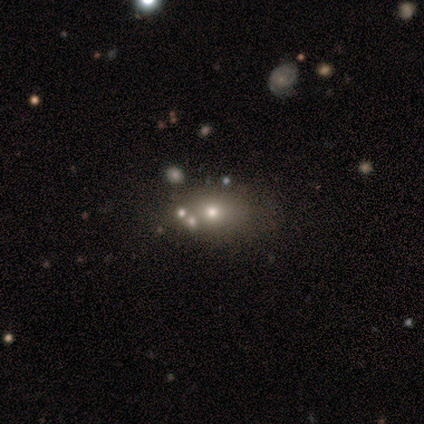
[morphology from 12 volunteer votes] Smooth or featured: smooth — 83% (featured or disk — 8%)
How rounded: in between — 70% (round — 30%)
Merging: none — 55% (merger — 27%)